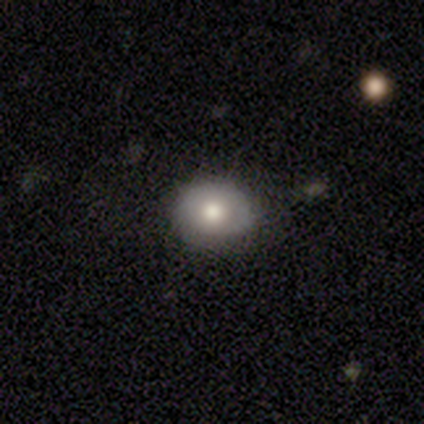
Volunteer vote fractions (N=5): Overall: smooth (60%; featured or disk 40%). How rounded: in between (67%; round 33%). Merging: none (100%).